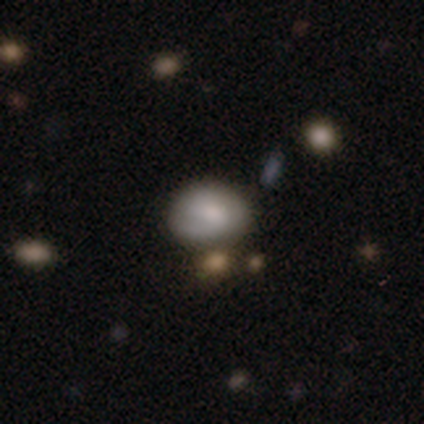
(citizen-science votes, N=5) Smooth or featured? smooth (60%)
How rounded? round (67%)
Merging? none (100%)